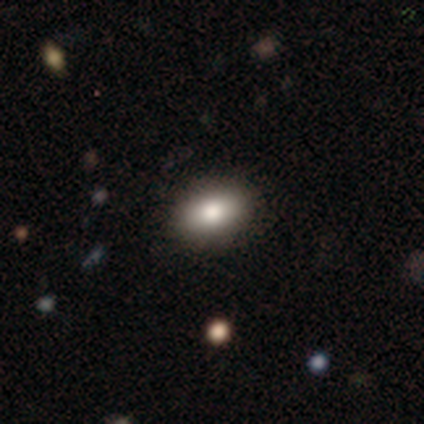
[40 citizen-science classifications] This is clearly a smooth galaxy (82%). How rounded: likely in between (73%). Merging: clearly none (89%).